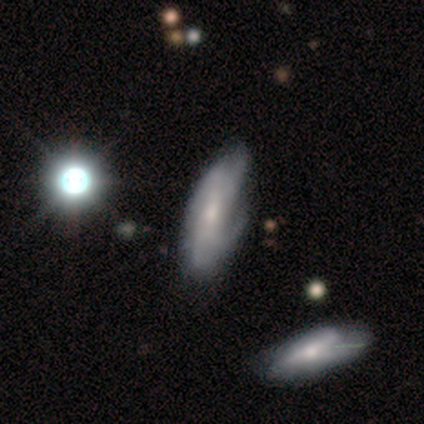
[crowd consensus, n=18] Volunteers were most divided on "spiral winding": medium: 44%, tight: 33%, loose: 22%. Remaining: bulge size — small (100%); edge-on disk — no (86%); smooth or featured — featured or disk (78%); merging — none (76%); bar — no (75%); spiral arms — yes (75%); spiral arm count — 4 (44%).